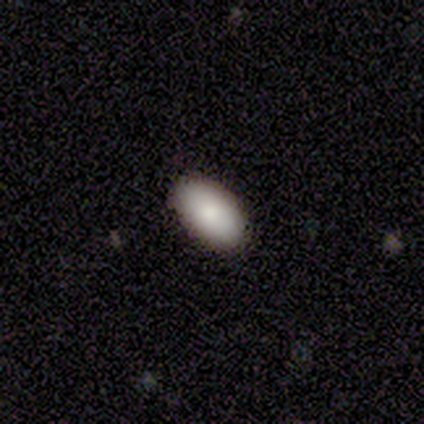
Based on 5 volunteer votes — smooth 100%, featured or disk 0%, star or artifact 0%. Down the decision tree: how rounded — in between (100%); merging — none (100%).